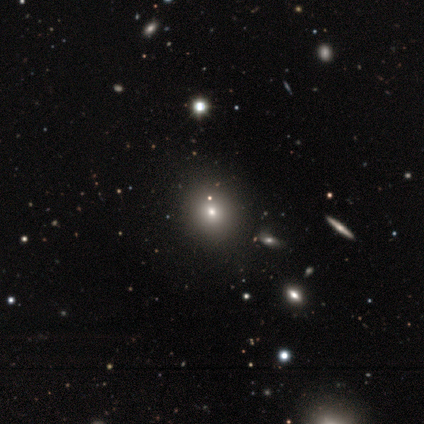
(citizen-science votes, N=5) Morphology: type=smooth (80%); roundness=round (100%); merging=none (100%).